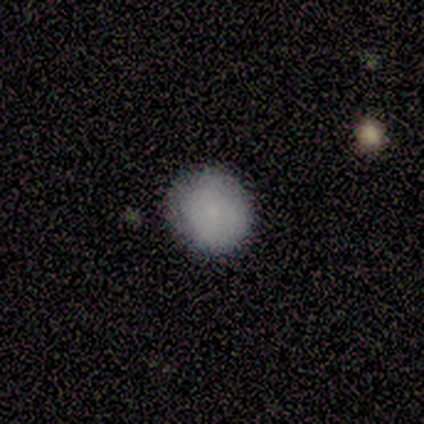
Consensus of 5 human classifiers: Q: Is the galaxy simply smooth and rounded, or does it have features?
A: smooth — 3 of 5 (60%).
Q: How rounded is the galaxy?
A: round — 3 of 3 (100%).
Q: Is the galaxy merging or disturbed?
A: none — 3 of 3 (100%).